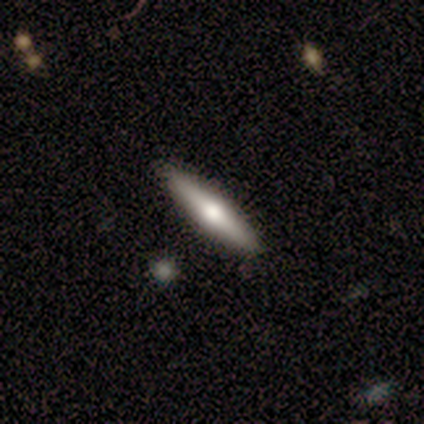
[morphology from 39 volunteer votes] featured or disk 59%, smooth 31%, star or artifact 10%. Down the decision tree: edge-on disk — yes (96%); edge-on bulge — rounded (100%); merging — none (94%).